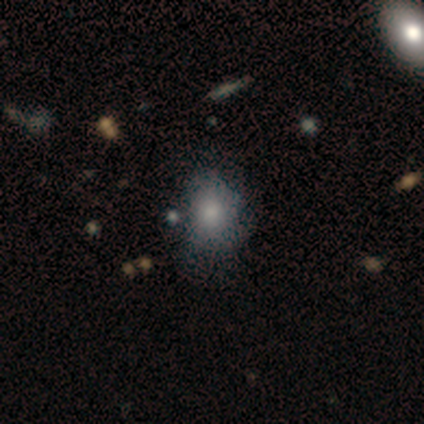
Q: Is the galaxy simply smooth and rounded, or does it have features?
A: smooth — 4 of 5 (80%).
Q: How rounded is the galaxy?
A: in between — 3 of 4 (75%).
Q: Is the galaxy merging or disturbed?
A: major disturbance — 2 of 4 (50%).